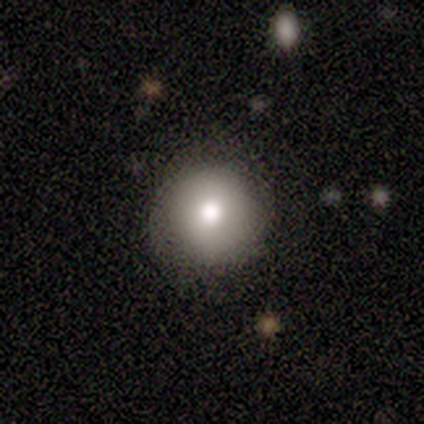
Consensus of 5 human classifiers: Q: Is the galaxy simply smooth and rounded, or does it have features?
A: smooth — 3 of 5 (60%).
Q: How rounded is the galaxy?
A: round — 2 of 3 (67%).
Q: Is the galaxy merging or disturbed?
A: none — 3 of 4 (75%).